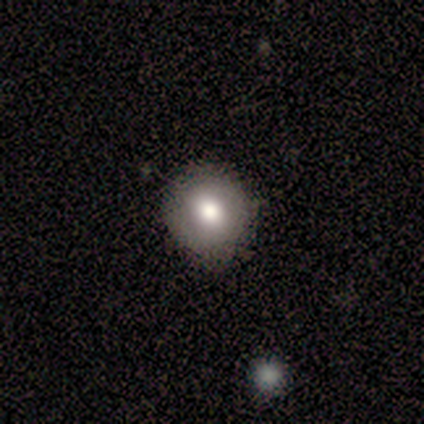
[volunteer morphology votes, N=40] A smooth galaxy with no disk features (68%) that is round (89%).

Vote fractions:
- Smooth or featured? smooth: 68% / featured or disk: 25% / star or artifact: 8%
- How rounded? round: 89% / in between: 11% / cigar-shaped: 0%
- Merging? none: 86% / minor disturbance: 11% / major disturbance: 3% / merger: 0%